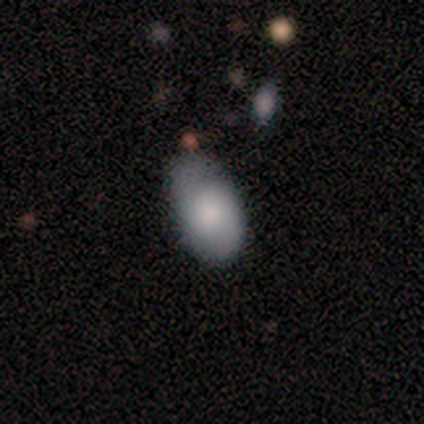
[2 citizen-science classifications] smooth_or_featured: smooth (p=1.00)
how_rounded: round (p=0.50) [tied with: in between p=0.50]
merging: minor disturbance (p=1.00)